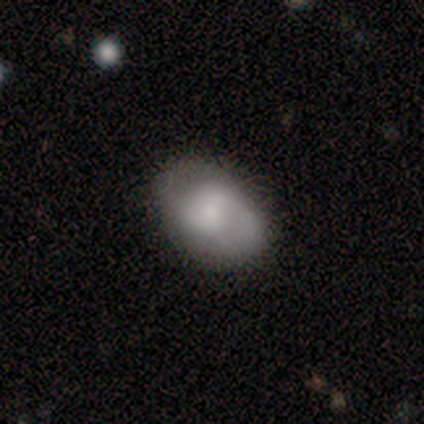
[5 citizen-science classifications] This is likely a smooth galaxy (60%). How rounded: likely in between (67%). Merging: marginally none (40%).